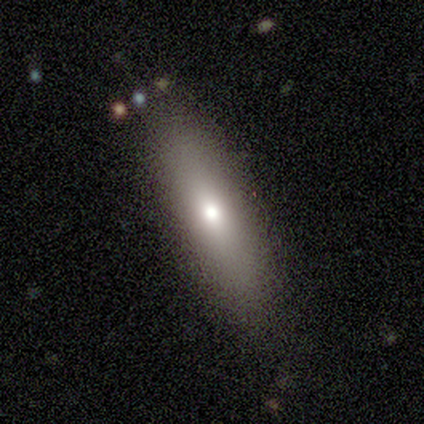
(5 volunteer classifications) This is likely a smooth galaxy (60%). How rounded: likely cigar-shaped (67%). Merging: clearly none (100%).